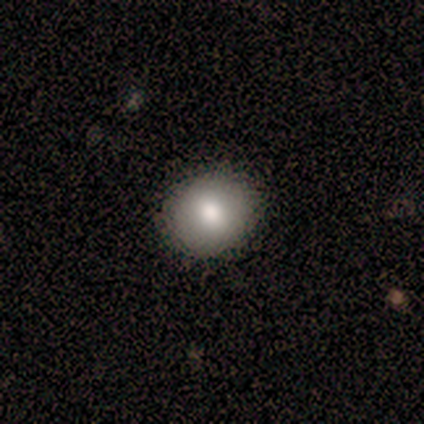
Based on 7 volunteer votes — Overall: smooth (57%; featured or disk 29%). How rounded: round (75%). Merging: none (100%).